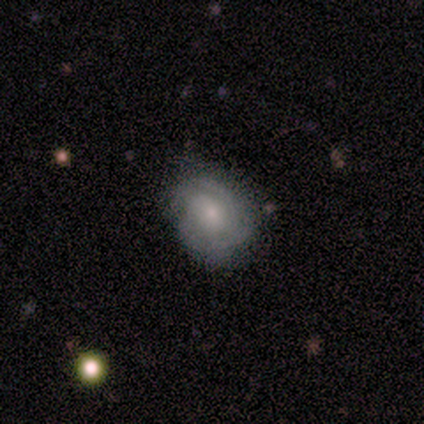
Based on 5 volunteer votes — This appears to be a featured or disk galaxy (60%) with a weak bar (67%), 2 (100%) medium (67%) spiral arms (100%) and a small central bulge (100%). Merging: none (80%).